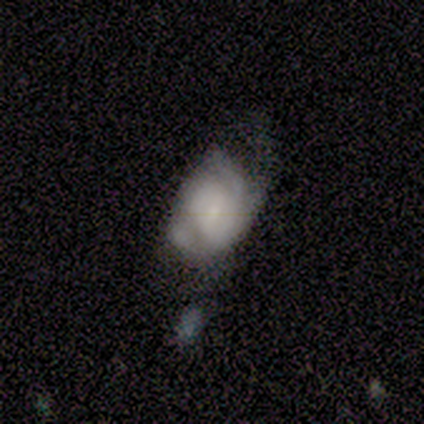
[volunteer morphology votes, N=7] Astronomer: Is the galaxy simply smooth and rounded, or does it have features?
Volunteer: featured or disk — 57% (runner-up: smooth, 43%).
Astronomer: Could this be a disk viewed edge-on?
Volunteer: no — 100%.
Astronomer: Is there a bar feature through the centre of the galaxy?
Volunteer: no — 75%.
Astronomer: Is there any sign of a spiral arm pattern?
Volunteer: yes — 100%.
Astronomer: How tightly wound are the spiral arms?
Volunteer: tight — 50%, tied with medium at 50%.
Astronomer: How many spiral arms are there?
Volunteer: can't tell — 50%.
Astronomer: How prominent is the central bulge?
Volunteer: small — 50%.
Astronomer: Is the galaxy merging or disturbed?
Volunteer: none — 29%, tied with major disturbance and merger at 29%.